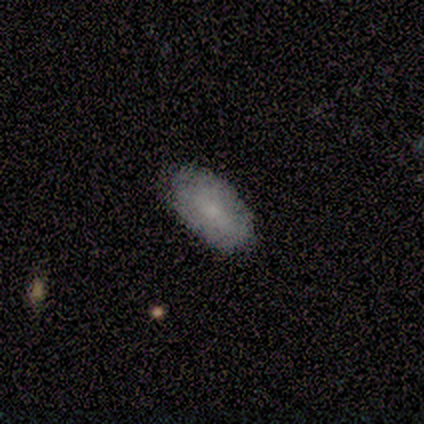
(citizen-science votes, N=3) A smooth galaxy with no disk features (67%) that is in between round and cigar-shaped (100%). Merging: none (100%).